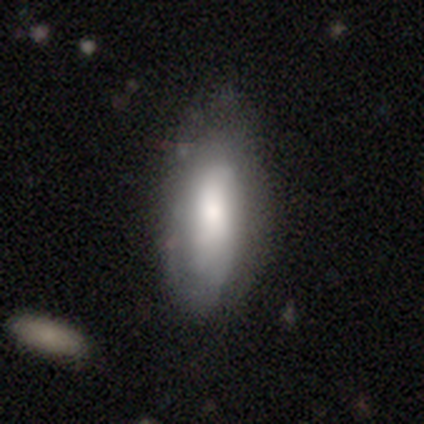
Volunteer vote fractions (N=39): This is likely a smooth galaxy (64%). How rounded: clearly in between (84%). Merging: possibly none (49%).